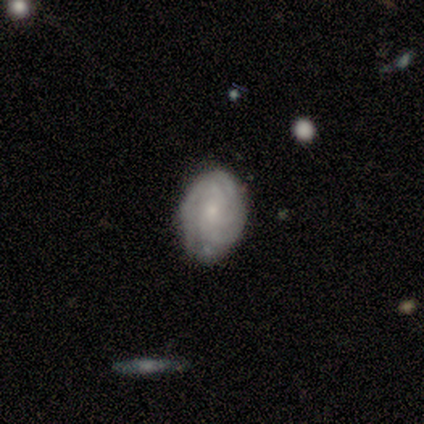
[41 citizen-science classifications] Smooth or featured? 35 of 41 (85%) said featured or disk. Edge-on disk? 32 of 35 (91%) said no. Bar? 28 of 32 (88%) said no. Spiral arms? 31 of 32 (97%) said yes. Spiral winding? 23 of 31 (74%) said tight. Spiral arm count? 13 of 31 (42%) said 3. Bulge size? 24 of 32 (75%) said small. Merging? 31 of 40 (78%) said none.